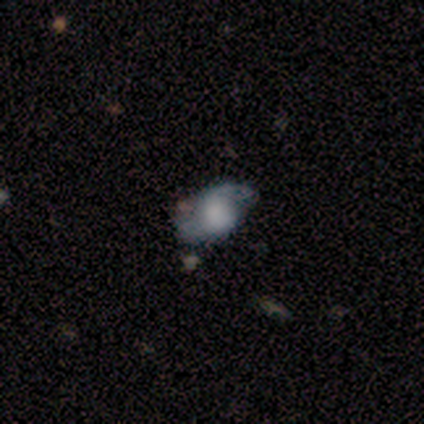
Volunteers were most divided on "spiral winding" (3-way tie): tight: 33%, medium: 33%, loose: 33%; "merging" (2-way tie): none: 50%, minor disturbance: 50%, major disturbance: 0%, merger: 0%. More confident: edge-on disk — no (100%); spiral arms — yes (100%); spiral arm count — 2 (100%); bar — weak (67%); bulge size — dominant (67%); smooth or featured — featured or disk (60%).